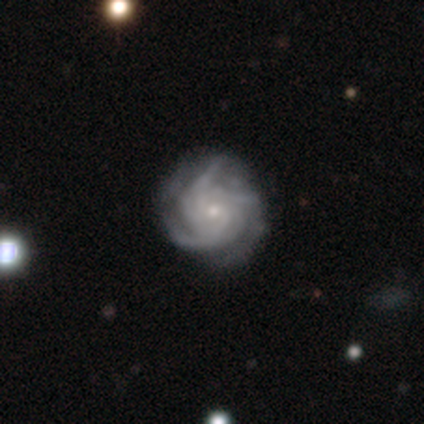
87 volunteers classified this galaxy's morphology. A featured or disk galaxy (92%) with no bar (78%), 3 (56%) tight (73%) spiral arms (99%) and a small central bulge (76%). Merging: none (69%).